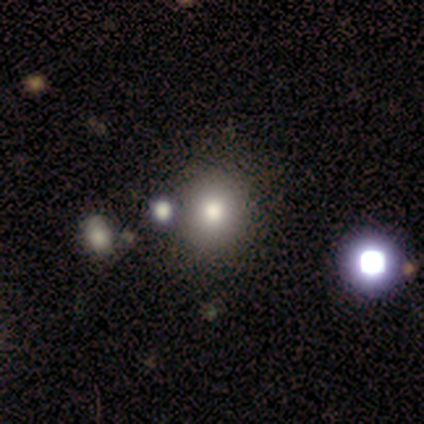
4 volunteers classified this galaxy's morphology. A smooth galaxy with no disk features (75%) that is round (100%). Merging: none (67%).